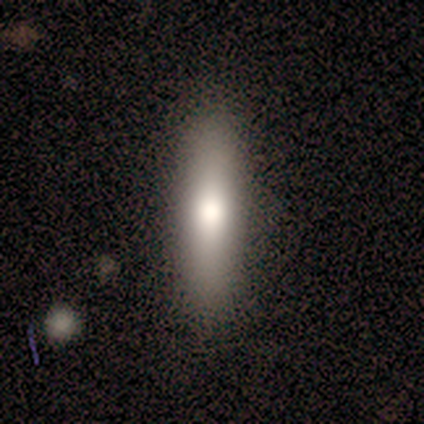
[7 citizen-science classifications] Volunteers were most divided on "merging": none: 86%, major disturbance: 14%, minor disturbance: 0%, merger: 0%. More confident: smooth or featured — smooth (100%); how rounded — cigar-shaped (100%).